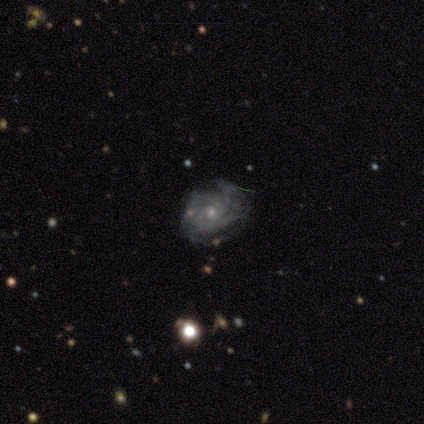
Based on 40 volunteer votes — Morphology: type=featured or disk (75%); edge-on=no (100%); bar=no (83%); spiral arms=yes (93%); winding=tight (68%); arm count=can't tell (61%); bulge=small (80%); merging=none (68%).